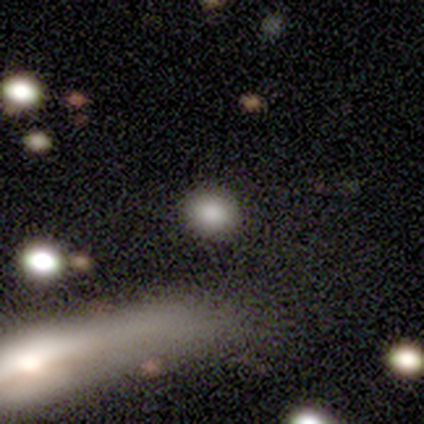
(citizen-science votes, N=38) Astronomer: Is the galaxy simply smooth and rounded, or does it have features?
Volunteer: smooth — 79%.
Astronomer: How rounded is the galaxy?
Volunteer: round — 80%.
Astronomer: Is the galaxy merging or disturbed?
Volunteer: none — 91%.